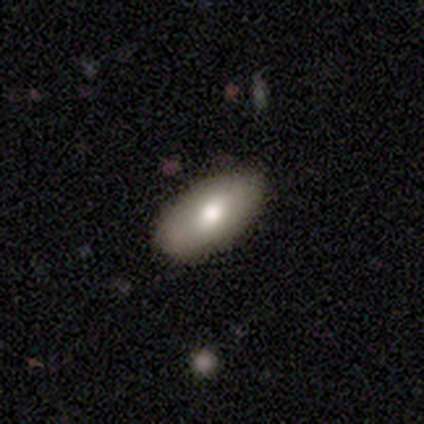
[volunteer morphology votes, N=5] Q: Smooth or featured?
A: smooth (80%); runner-up: star or artifact (20%)
Q: How rounded?
A: in between (75%); runner-up: round (25%)
Q: Merging?
A: none (100%)